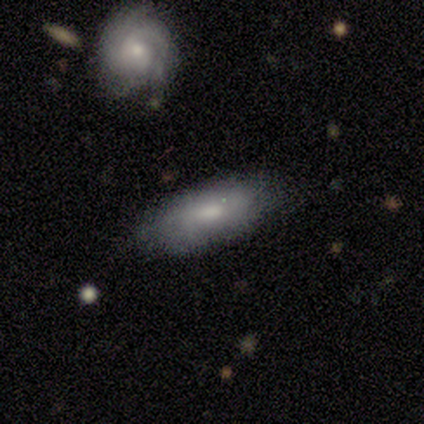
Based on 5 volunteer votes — A smooth galaxy with no disk features (60%) that is in between round and cigar-shaped (100%).

Vote fractions:
- Smooth or featured? smooth: 60% / featured or disk: 40% / star or artifact: 0%
- How rounded? in between: 100% / round: 0% / cigar-shaped: 0%
- Merging? none: 80% / merger: 20% / minor disturbance: 0% / major disturbance: 0%